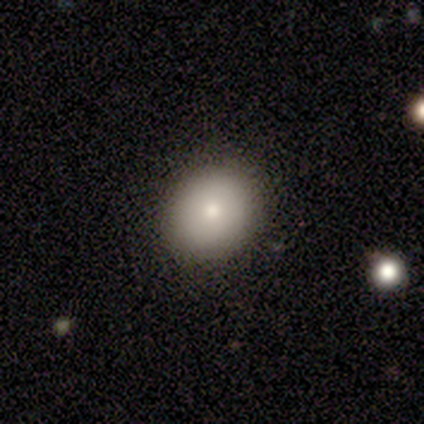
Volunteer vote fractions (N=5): This is clearly a smooth galaxy (100%). How rounded: likely round (60%). Merging: clearly none (100%).